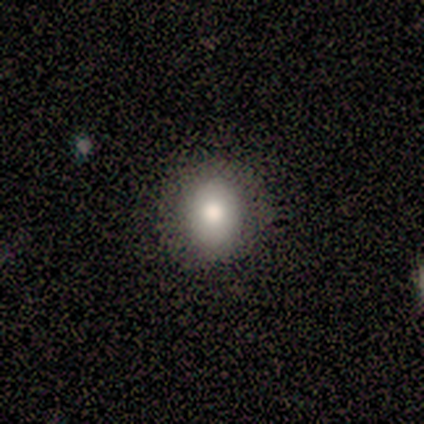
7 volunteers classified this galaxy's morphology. Overall: smooth (100%). How rounded: round (57%; in between 43%). Merging: none (71%).